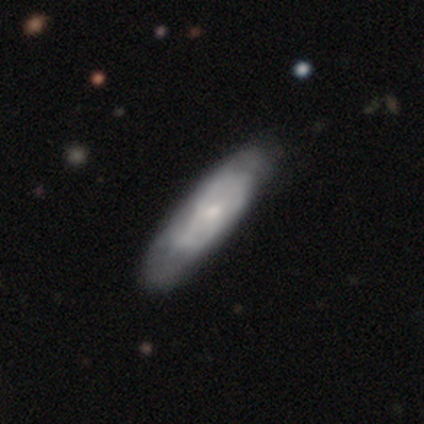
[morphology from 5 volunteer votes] smooth-or-featured: featured or disk: 60% | smooth: 40% | star or artifact: 0%
  disk-edge-on: no: 100% | yes: 0%
    bar: no: 100% | strong: 0% | weak: 0%
    has-spiral-arms: no: 67% | yes: 33%
    bulge-size: small: 67% | large: 33% | dominant: 0% | moderate: 0% | none: 0%
  merging: none: 80% | minor disturbance: 20% | major disturbance: 0% | merger: 0%